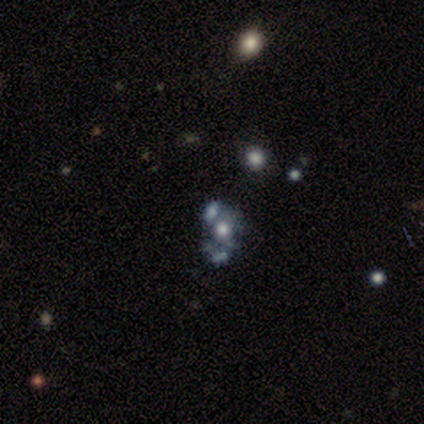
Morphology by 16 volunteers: Smooth or featured: featured or disk — 62% (smooth — 19%)
Edge-on disk: no — 100%
Bar: no — 100%
Spiral arms: no — 90% (yes — 10%)
Bulge size: moderate — 70% (small — 20%)
Merging: none — 54% (major disturbance — 31%)